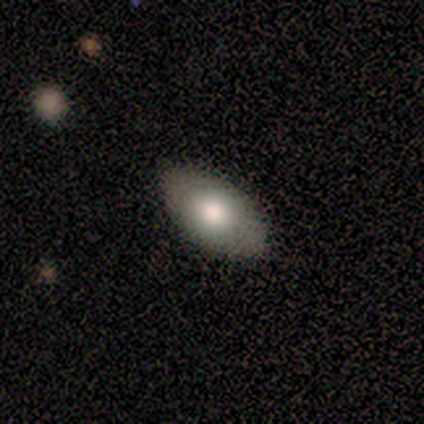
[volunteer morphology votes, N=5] A smooth galaxy with no disk features (80%) that is in between round and cigar-shaped (100%). Merging: none (80%).